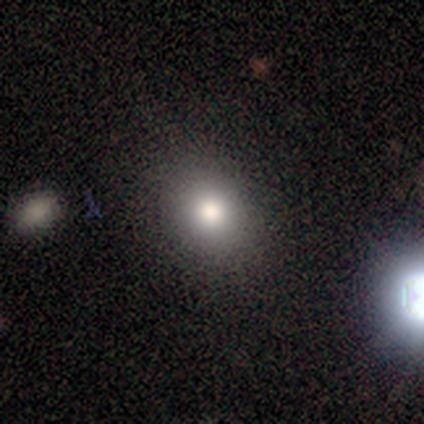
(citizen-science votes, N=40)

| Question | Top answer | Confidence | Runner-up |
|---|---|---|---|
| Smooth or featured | smooth | 82% | star or artifact (12%) |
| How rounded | round | 79% | in between (21%) |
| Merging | none | 91% | minor disturbance (9%) |